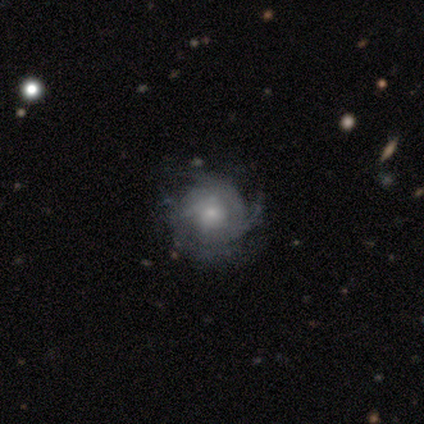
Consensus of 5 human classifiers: Smooth or featured? featured or disk (100%)
Edge-on disk? no (100%)
Bar? no (80%)
Spiral arms? no (60%)
Bulge size? small (40%)
Merging? none (60%)